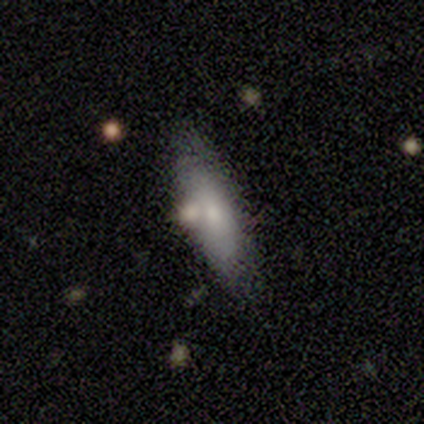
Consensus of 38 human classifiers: smooth_or_featured: smooth (p=0.84) [alt: featured or disk p=0.11]
how_rounded: in between (p=0.56) [alt: cigar-shaped p=0.44]
merging: none (p=0.56) [alt: merger p=0.19]